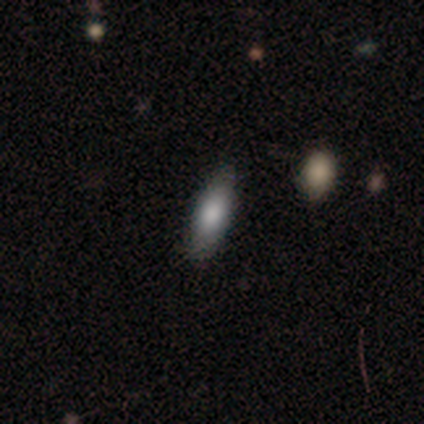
Smooth or featured? smooth (80%)
How rounded? cigar-shaped (75%)
Merging? none (80%)